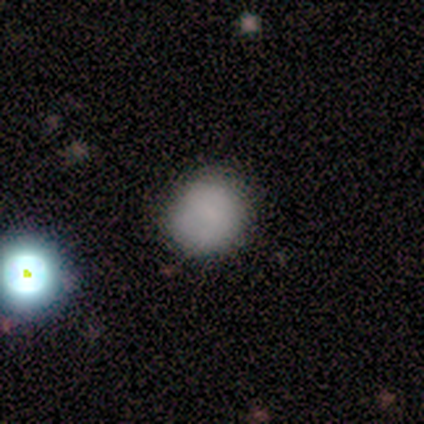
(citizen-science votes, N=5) smooth 80%, star or artifact 20%, featured or disk 0%. Down the decision tree: how rounded — round (100%); merging — none (75%).